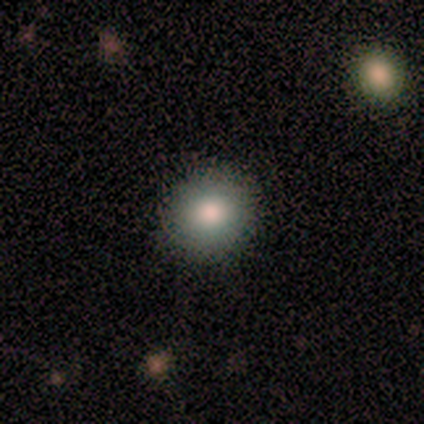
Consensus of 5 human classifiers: smooth_or_featured: smooth (p=1.00)
how_rounded: round (p=1.00)
merging: none (p=1.00)